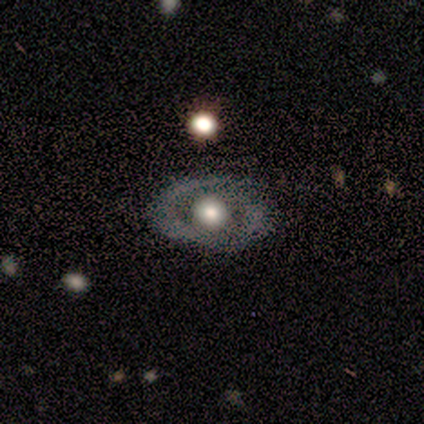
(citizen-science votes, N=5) smooth_or_featured: featured or disk (p=0.60) [alt: smooth p=0.40]
disk_edge_on: no (p=1.00)
bar: no (p=0.67) [alt: strong p=0.33]
has_spiral_arms: yes (p=0.67) [alt: no p=0.33]
spiral_winding: tight (p=1.00)
spiral_arm_count: 2 (p=1.00)
bulge_size: large (p=0.67) [alt: moderate p=0.33]
merging: none (p=0.80) [alt: major disturbance p=0.20]